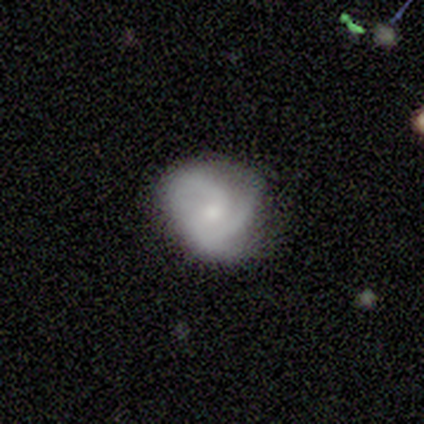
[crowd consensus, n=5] Smooth or featured?
  - featured or disk: 100% *
  - smooth: 0%
  - star or artifact: 0%
Edge-on disk?
  - no: 100% *
  - yes: 0%
Bar?
  - no: 60% *
  - weak: 40%
  - strong: 0%
Spiral arms?
  - yes: 100% *
  - no: 0%
Spiral winding?
  - tight: 80% *
  - medium: 20%
  - loose: 0%
Spiral arm count?
  - 3: 60% *
  - 2: 40%
  - 1: 0%
  - 4: 0%
  - more than 4: 0%
  - can't tell: 0%
Bulge size?
  - moderate: 40% * (tied)
  - small: 40% * (tied)
  - none: 20%
  - dominant: 0%
  - large: 0%
Merging?
  - none: 60% *
  - minor disturbance: 40%
  - major disturbance: 0%
  - merger: 0%